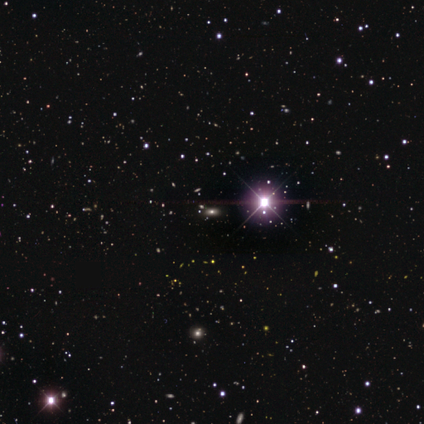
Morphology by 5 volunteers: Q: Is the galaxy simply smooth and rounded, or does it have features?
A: star or artifact — 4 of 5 (80%).